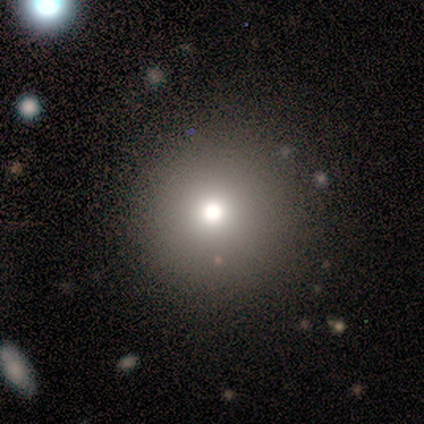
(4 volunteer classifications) smooth_or_featured: smooth (p=0.50) [tied with: star or artifact p=0.50]
how_rounded: round (p=1.00)
merging: none (p=1.00)